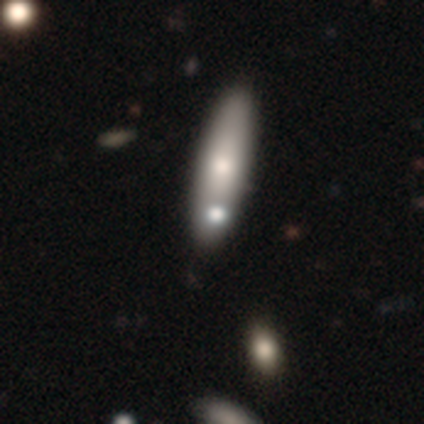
A smooth galaxy with no disk features (67%) that is cigar-shaped (75%).

Vote fractions:
- Smooth or featured? smooth: 67% / featured or disk: 33% / star or artifact: 0%
- How rounded? cigar-shaped: 75% / in between: 25% / round: 0%
- Merging? none: 83% / major disturbance: 17% / minor disturbance: 0% / merger: 0%